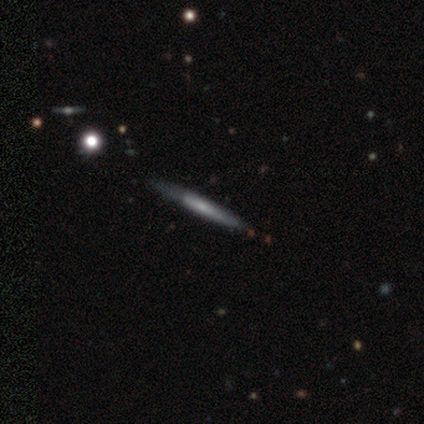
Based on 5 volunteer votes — Smooth or featured: smooth — 80% (featured or disk — 20%)
How rounded: cigar-shaped — 100%
Merging: none — 100%